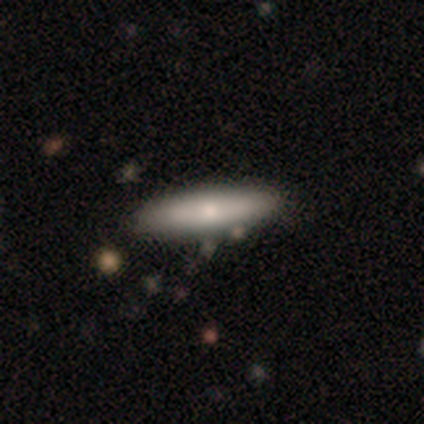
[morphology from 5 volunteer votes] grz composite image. It shows a smooth galaxy with no disk features (40%, tied with featured or disk) that is round (50%, tied with cigar-shaped). Merging: none (100%).